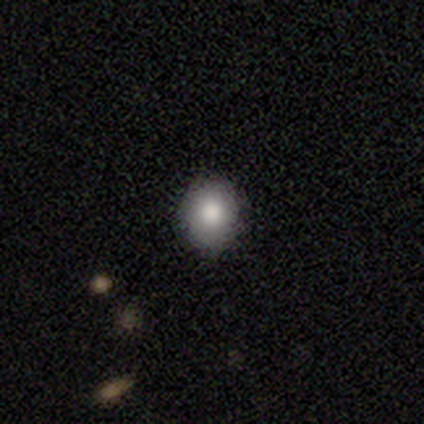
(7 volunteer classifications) Morphology: type=smooth (86%); roundness=round (67%); merging=none (71%).